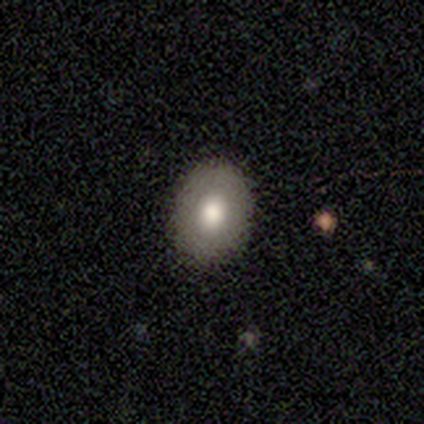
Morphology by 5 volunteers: This is clearly a smooth galaxy (100%). How rounded: likely round (60%). Merging: clearly none (100%).